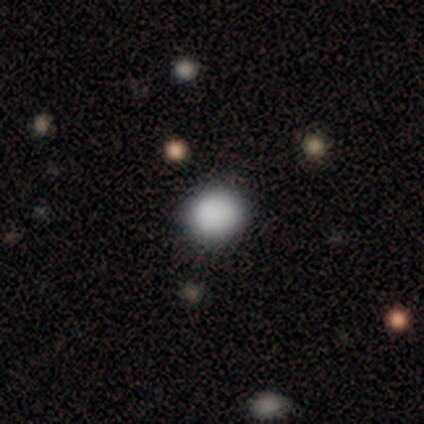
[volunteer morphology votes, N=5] This is likely a smooth galaxy (60%). How rounded: clearly round (100%). Merging: clearly none (100%).